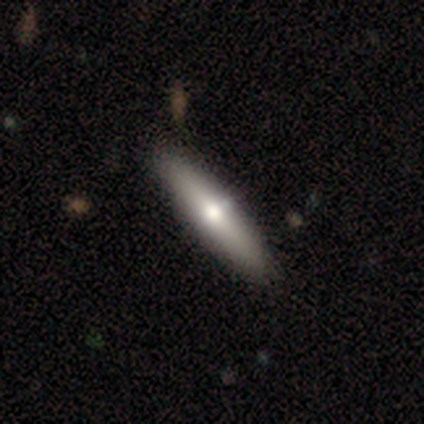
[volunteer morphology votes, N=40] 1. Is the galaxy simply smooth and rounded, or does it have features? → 60% smooth, 40% featured or disk, 0% star or artifact.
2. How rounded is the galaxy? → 79% cigar-shaped, 21% in between, 0% round.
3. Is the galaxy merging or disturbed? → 57% none, 12% merger, 2% major disturbance, 0% minor disturbance.